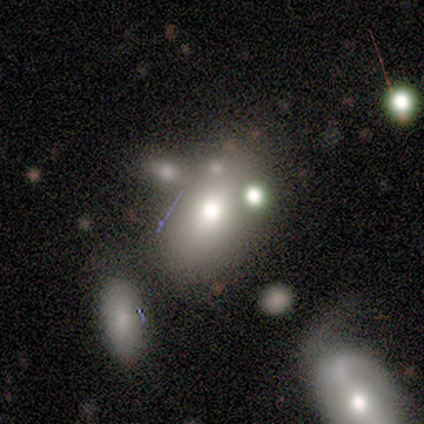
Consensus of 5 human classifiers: Smooth or featured? 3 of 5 (60%) said featured or disk. Edge-on disk? 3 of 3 (100%) said no. Bar? 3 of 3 (100%) said no. Spiral arms? 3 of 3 (100%) said no. Bulge size? 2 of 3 (67%) said moderate. Merging? 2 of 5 (40%, tied with minor disturbance) said none.